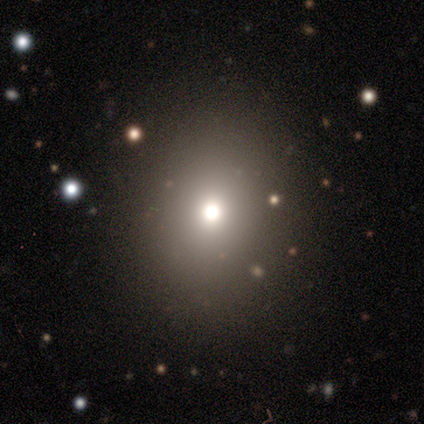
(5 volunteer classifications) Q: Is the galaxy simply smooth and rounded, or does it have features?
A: star or artifact — 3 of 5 (60%).